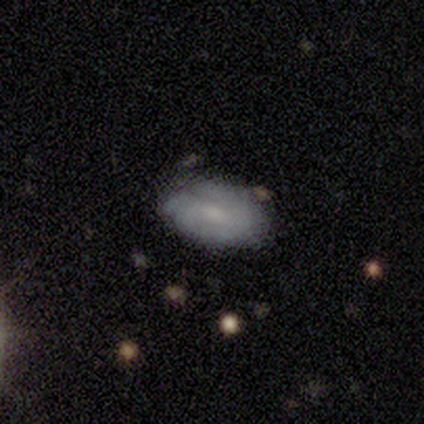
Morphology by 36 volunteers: smooth 58%, featured or disk 36%, star or artifact 6%. Down the decision tree: how rounded — in between (100%); merging — none (76%).